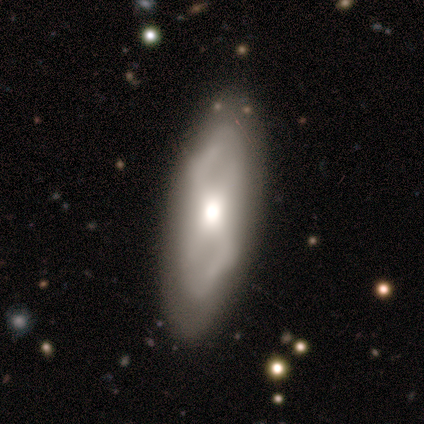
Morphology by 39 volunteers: type=featured or disk (69%); edge-on=no (93%); bar=no (48%); spiral arms=yes (80%); winding=loose (60%); arm count=2 (35%); bulge=moderate (56%); merging=none (79%).